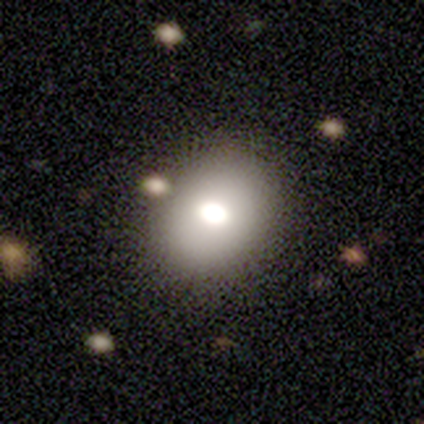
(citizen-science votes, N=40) Volunteers were most divided on "how rounded": round: 57%, in between: 43%, cigar-shaped: 0%. More confident: merging — none (74%); smooth or featured — smooth (70%).